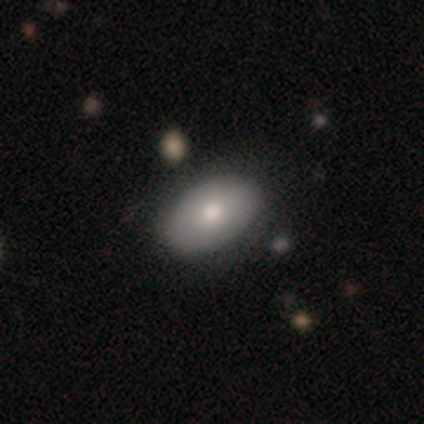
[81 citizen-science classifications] Smooth or featured: smooth — 77% (featured or disk — 17%)
How rounded: in between — 92% (round — 8%)
Merging: none — 39% (minor disturbance — 8%)